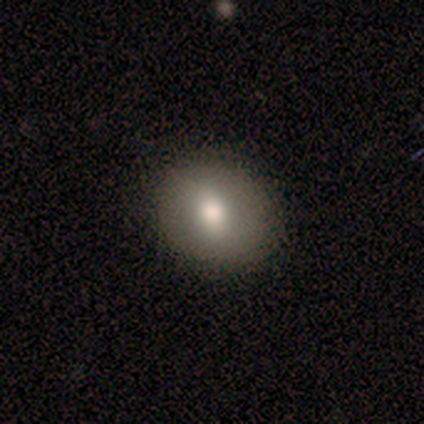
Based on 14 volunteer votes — smooth_or_featured: smooth (p=0.71) [alt: featured or disk p=0.14]
how_rounded: round (p=0.60) [alt: in between p=0.40]
merging: none (p=0.92) [alt: minor disturbance p=0.08]